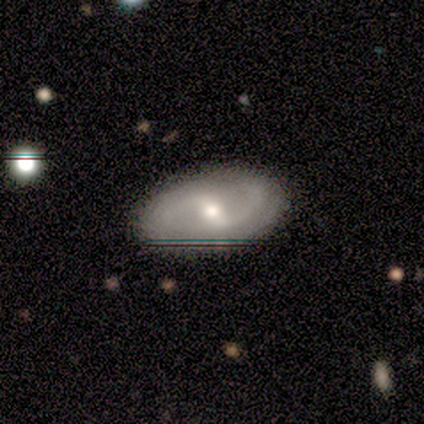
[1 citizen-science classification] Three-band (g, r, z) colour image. It shows a featured or disk galaxy (100%) with a weak bar (100%), 2 (100%) loose (100%) spiral arms (100%) and a moderate central bulge (100%). Merging: none (100%).